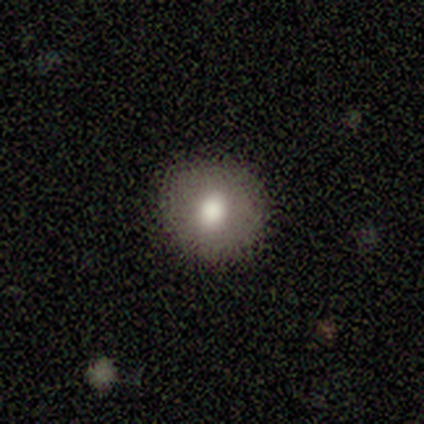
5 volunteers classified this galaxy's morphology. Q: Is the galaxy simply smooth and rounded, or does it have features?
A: smooth — 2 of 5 (40%, tied with featured or disk).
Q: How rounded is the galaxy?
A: round — 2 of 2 (100%).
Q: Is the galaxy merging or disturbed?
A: none — 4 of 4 (100%).